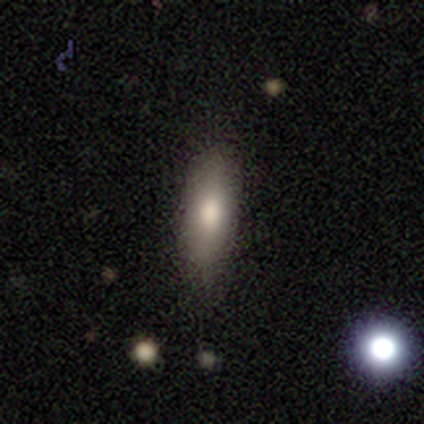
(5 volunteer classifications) Q: Smooth or featured?
A: smooth (80%); runner-up: featured or disk (20%)
Q: How rounded?
A: in between (50%); tied with: cigar-shaped (50%)
Q: Merging?
A: none (100%)